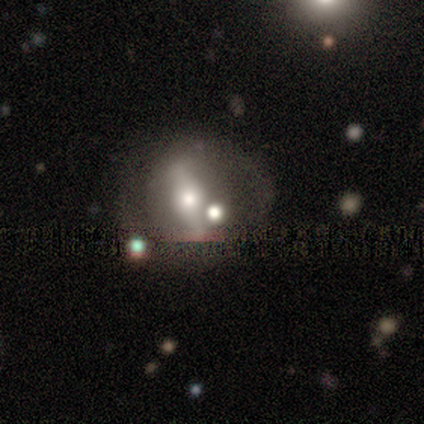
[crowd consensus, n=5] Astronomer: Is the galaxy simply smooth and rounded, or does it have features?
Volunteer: featured or disk — 80%.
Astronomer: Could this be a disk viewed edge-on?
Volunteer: no — 100%.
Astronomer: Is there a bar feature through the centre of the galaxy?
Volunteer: strong — 100%.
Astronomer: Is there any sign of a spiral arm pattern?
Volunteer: yes — 50%, tied with no at 50%.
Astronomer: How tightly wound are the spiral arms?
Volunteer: tight — 50%, tied with medium at 50%.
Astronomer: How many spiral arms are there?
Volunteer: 2 — 100%.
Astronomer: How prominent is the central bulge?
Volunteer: moderate — 100%.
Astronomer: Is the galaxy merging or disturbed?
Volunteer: none — 60%.